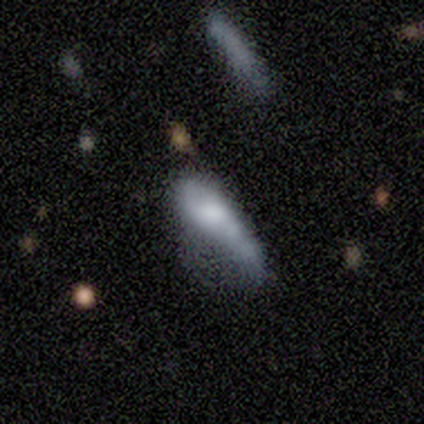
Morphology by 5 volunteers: smooth_or_featured: smooth (p=0.60) [alt: featured or disk p=0.20]
how_rounded: in between (p=0.67) [alt: cigar-shaped p=0.33]
merging: minor disturbance (p=0.50) [tied with: major disturbance p=0.50]